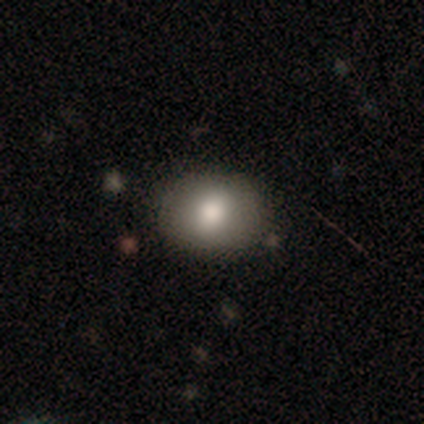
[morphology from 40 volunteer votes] Smooth or featured: smooth — 80% (star or artifact — 12%)
How rounded: in between — 50% (round — 47%)
Merging: none — 86% (minor disturbance — 11%)